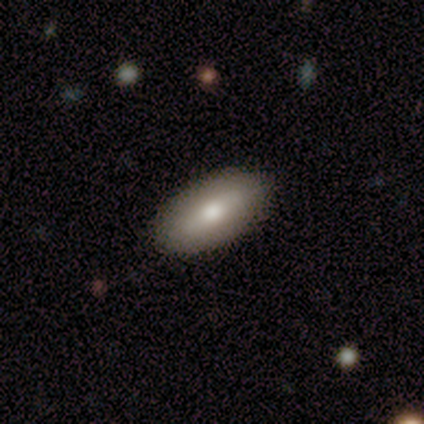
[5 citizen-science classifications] A smooth galaxy with no disk features (40%, tied with featured or disk) that is in between round and cigar-shaped (100%). Merging: none (100%).